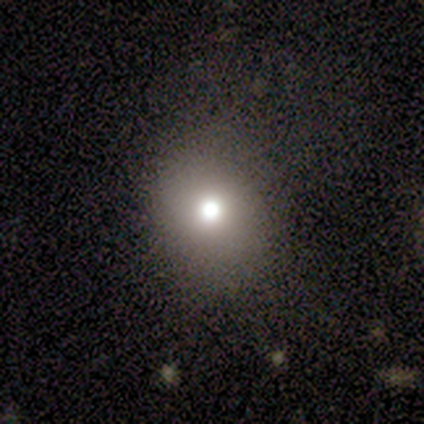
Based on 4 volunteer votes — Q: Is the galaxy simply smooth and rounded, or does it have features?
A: smooth — 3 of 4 (75%).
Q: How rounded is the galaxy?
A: round — 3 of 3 (100%).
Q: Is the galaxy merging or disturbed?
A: none — 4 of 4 (100%).